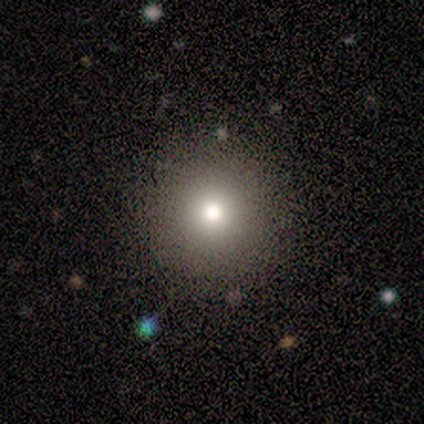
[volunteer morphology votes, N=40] smooth-or-featured: smooth: 80% | star or artifact: 20% | featured or disk: 0%
  how-rounded: round: 97% | in between: 3% | cigar-shaped: 0%
  merging: none: 94% | minor disturbance: 3% | major disturbance: 3% | merger: 0%